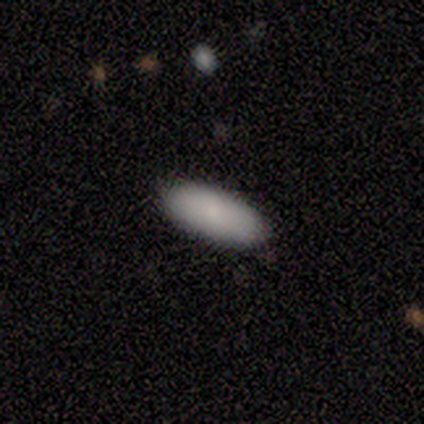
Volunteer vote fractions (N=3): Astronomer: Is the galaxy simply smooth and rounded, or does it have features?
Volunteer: smooth — 33%, tied with featured or disk and star or artifact at 33%.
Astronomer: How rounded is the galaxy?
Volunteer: in between — 100%.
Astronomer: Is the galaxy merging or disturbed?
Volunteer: none — 100%.